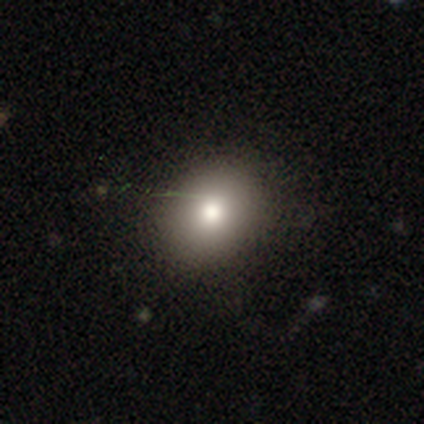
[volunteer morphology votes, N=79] smooth 85%, star or artifact 11%, featured or disk 4%. Down the decision tree: how rounded — round (61%); merging — none (54%).